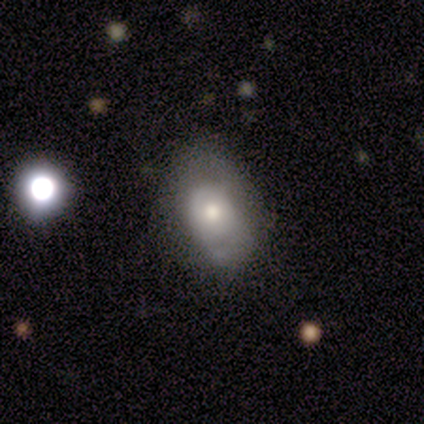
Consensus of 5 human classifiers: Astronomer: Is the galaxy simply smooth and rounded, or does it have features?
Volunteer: smooth — 40%, tied with featured or disk at 40%.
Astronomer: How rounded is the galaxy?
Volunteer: in between — 100%.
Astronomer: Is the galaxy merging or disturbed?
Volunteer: none — 50%, tied with minor disturbance at 50%.